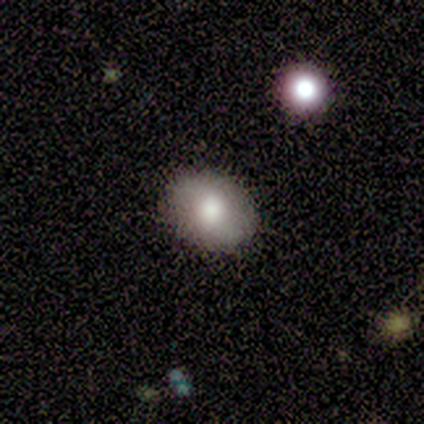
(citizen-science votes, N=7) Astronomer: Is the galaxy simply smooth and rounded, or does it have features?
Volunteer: smooth — 100%.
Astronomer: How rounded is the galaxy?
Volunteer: in between — 100%.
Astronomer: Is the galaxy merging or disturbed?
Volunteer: none — 71%.